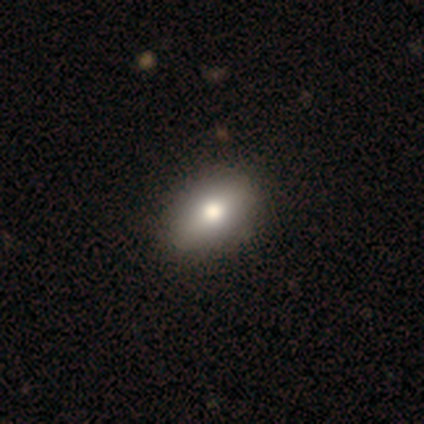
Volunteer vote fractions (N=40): Morphology: type=smooth (82%); roundness=in between (82%); merging=none (80%).